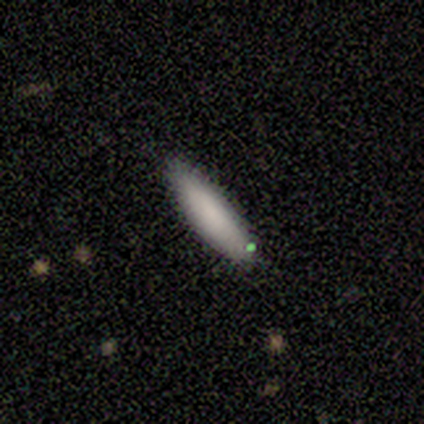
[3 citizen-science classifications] Q: Smooth or featured?
A: smooth (100%)
Q: How rounded?
A: in between (100%)
Q: Merging?
A: none (67%); runner-up: minor disturbance (33%)